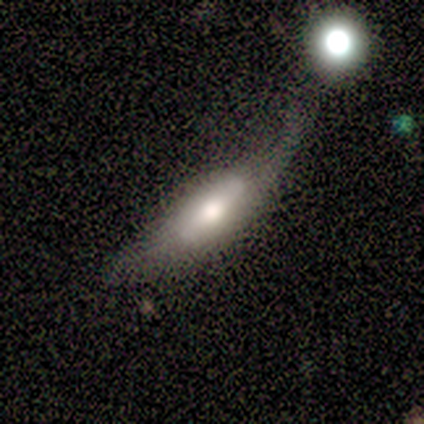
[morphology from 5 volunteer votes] Smooth or featured? 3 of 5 (60%) said smooth. How rounded? 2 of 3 (67%) said in between. Merging? 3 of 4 (75%) said minor disturbance.